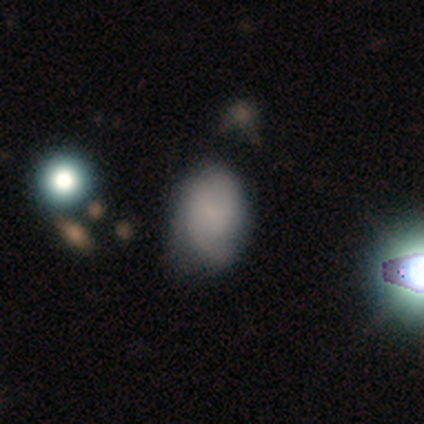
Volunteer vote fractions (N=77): smooth_or_featured: featured or disk (p=0.48) [alt: smooth p=0.44]
disk_edge_on: no (p=1.00)
bar: no (p=0.62) [alt: weak p=0.38]
has_spiral_arms: yes (p=0.86) [alt: no p=0.14]
spiral_winding: medium (p=0.44) [alt: loose p=0.31]
spiral_arm_count: 2 (p=0.59) [alt: can't tell p=0.22]
bulge_size: none (p=0.49) [alt: small p=0.46]
merging: minor disturbance (p=0.24) [alt: none p=0.21]